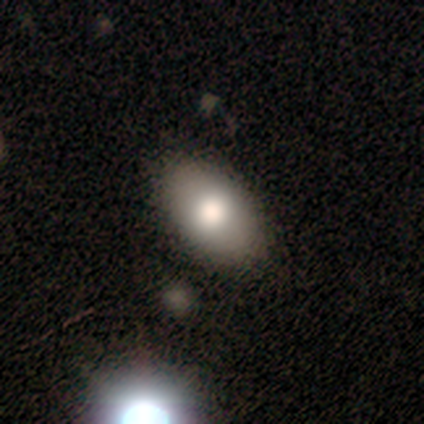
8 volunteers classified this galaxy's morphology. This is likely a smooth galaxy (75%). How rounded: clearly in between (100%). Merging: clearly none (100%).